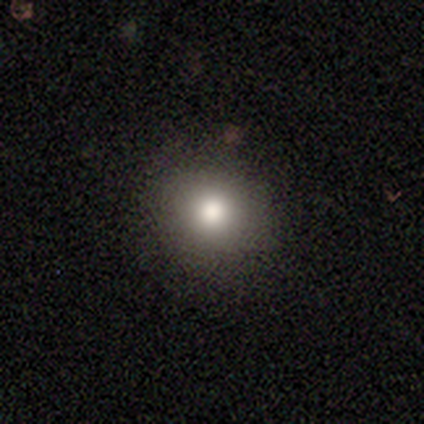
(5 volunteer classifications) smooth 80%, star or artifact 20%, featured or disk 0%. Down the decision tree: how rounded — round (100%); merging — none (50%, tied with minor disturbance).